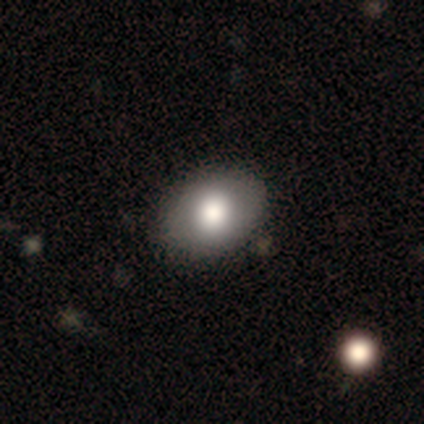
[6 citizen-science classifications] A smooth galaxy with no disk features (100%) that is in between round and cigar-shaped (100%).

Vote fractions:
- Smooth or featured? smooth: 100% / featured or disk: 0% / star or artifact: 0%
- How rounded? in between: 100% / round: 0% / cigar-shaped: 0%
- Merging? none: 83% / minor disturbance: 17% / major disturbance: 0% / merger: 0%